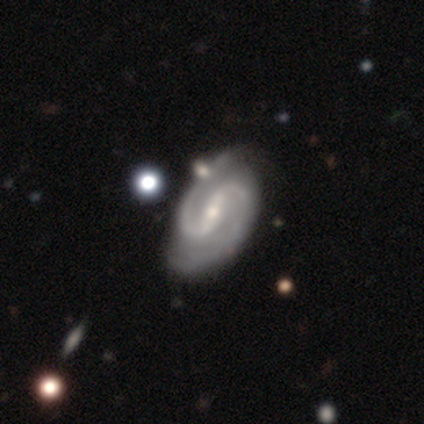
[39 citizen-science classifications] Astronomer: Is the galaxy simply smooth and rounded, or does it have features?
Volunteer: featured or disk — 92%.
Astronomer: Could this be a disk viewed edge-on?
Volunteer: no — 100%.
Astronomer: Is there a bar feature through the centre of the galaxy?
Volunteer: strong — 64%.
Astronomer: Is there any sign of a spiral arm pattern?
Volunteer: yes — 100%.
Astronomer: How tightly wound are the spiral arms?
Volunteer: medium — 61%.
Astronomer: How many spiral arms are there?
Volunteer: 2 — 100%.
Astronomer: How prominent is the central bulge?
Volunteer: small — 69%.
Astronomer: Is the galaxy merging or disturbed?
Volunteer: none — 39% (runner-up: merger, 16%).